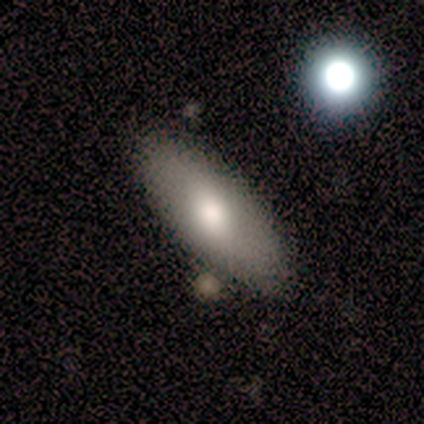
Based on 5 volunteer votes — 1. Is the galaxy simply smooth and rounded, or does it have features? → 80% smooth, 20% featured or disk, 0% star or artifact.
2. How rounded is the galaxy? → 100% in between, 0% round, 0% cigar-shaped.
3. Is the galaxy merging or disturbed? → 100% none, 0% minor disturbance, 0% major disturbance, 0% merger.